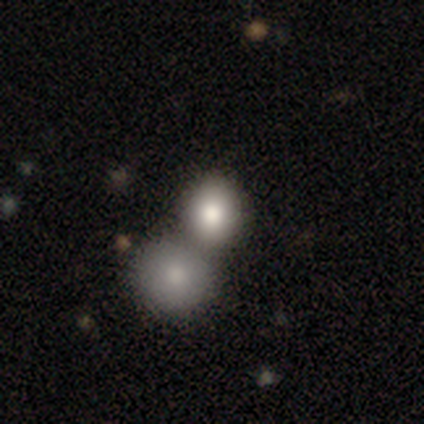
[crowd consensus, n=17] A smooth galaxy with no disk features (88%) that is round (93%).

Vote fractions:
- Smooth or featured? smooth: 88% / featured or disk: 12% / star or artifact: 0%
- How rounded? round: 93% / in between: 7% / cigar-shaped: 0%
- Merging? none: 59% / merger: 35% / minor disturbance: 6% / major disturbance: 0%